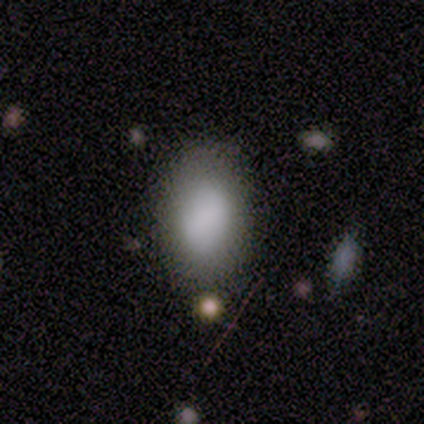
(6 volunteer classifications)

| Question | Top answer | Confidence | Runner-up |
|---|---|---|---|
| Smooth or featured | smooth | 100% | — |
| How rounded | in between | 67% | round (33%) |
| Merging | none | 100% | — |